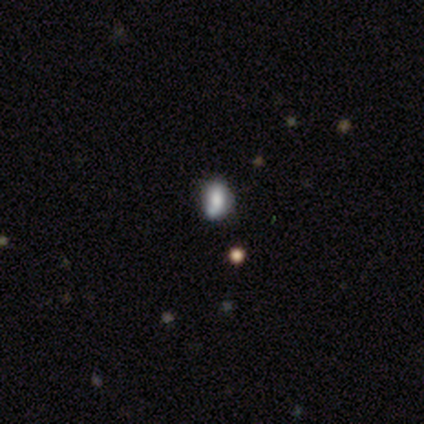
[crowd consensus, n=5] smooth 40% (tied), star or artifact 40% (tied), featured or disk 20%. Down the decision tree: how rounded — in between (100%); merging — major disturbance (67%).